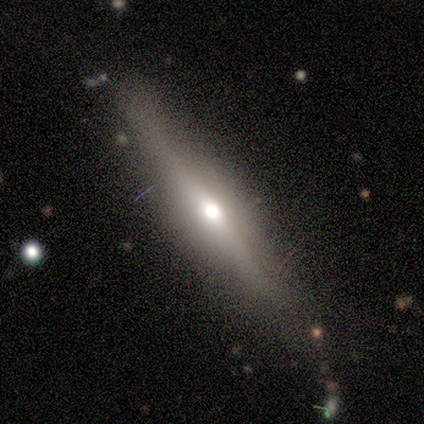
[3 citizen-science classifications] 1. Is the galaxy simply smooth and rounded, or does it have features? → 100% featured or disk, 0% smooth, 0% star or artifact.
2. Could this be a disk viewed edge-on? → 100% yes, 0% no.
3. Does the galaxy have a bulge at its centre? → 100% rounded, 0% boxy, 0% none.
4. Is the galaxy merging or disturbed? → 100% none, 0% minor disturbance, 0% major disturbance, 0% merger.